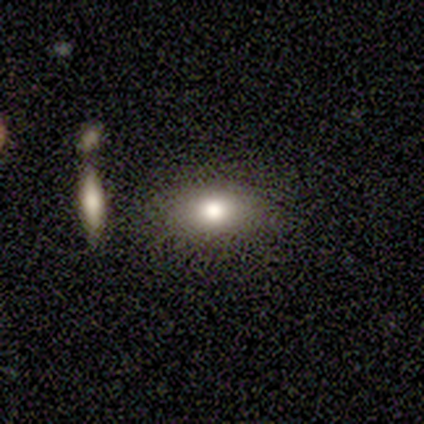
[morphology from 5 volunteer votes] Smooth or featured? 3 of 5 (60%) said smooth. How rounded? 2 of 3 (67%) said in between. Merging? 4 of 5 (80%) said none.